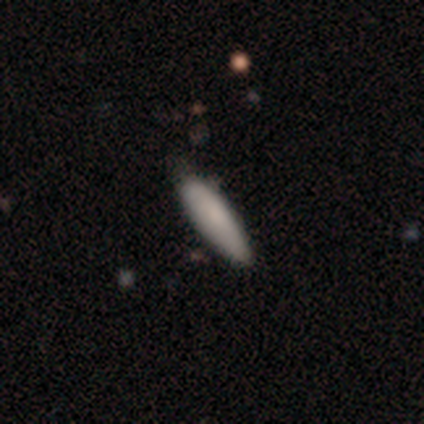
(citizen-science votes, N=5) Smooth or featured? smooth (80%)
How rounded? in between (50%, tied with cigar-shaped)
Merging? none (80%)